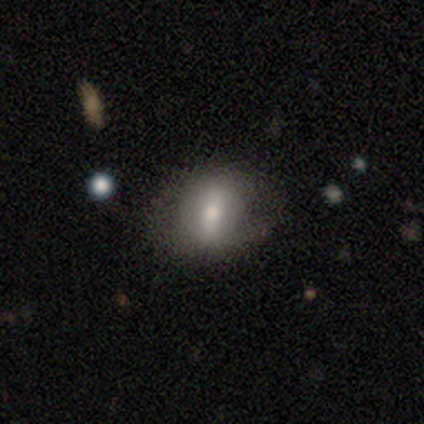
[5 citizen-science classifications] Volunteers were most divided on "how rounded": round: 60%, in between: 40%, cigar-shaped: 0%. More confident: smooth or featured — smooth (100%); merging — none (60%).